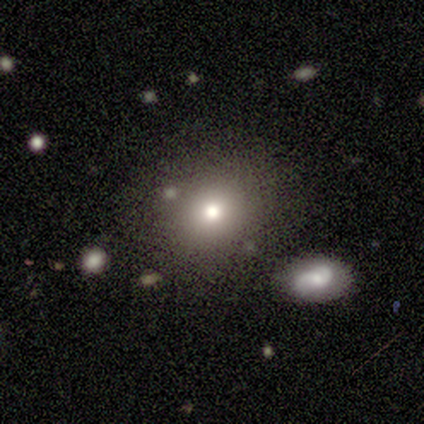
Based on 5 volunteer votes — Smooth or featured: smooth — 80% (star or artifact — 20%)
How rounded: round — 75% (in between — 25%)
Merging: none — 100%